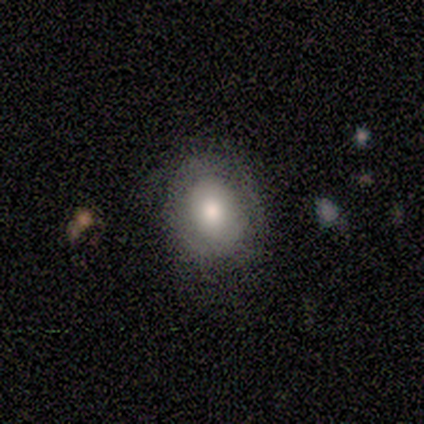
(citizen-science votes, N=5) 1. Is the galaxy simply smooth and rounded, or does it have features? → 60% featured or disk, 40% smooth, 0% star or artifact.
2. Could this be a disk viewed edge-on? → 100% no, 0% yes.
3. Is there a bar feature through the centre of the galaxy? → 100% no, 0% strong, 0% weak.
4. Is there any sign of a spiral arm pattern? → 67% no, 33% yes.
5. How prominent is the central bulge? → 33% large (tied), 33% moderate (tied), 33% small (tied), 0% dominant, 0% none.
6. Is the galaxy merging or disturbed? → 80% none, 20% minor disturbance, 0% major disturbance, 0% merger.